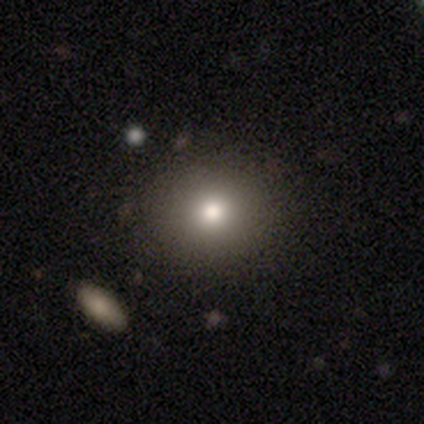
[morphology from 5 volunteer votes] smooth 80%, featured or disk 20%, star or artifact 0%. Down the decision tree: how rounded — round (75%); merging — none (100%).